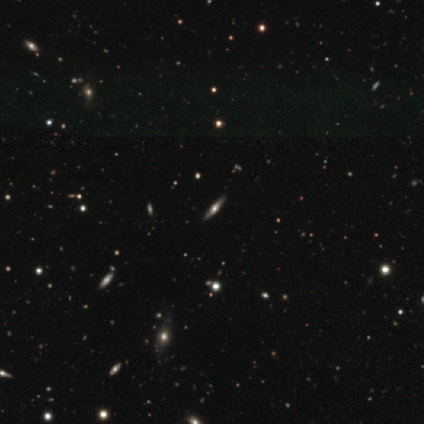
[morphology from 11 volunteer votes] Smooth or featured?
  - featured or disk: 82% *
  - smooth: 18%
  - star or artifact: 0%
Edge-on disk?
  - yes: 100% *
  - no: 0%
Edge-on bulge?
  - rounded: 89% *
  - boxy: 11%
  - none: 0%
Merging?
  - none: 82% *
  - minor disturbance: 18%
  - major disturbance: 0%
  - merger: 0%